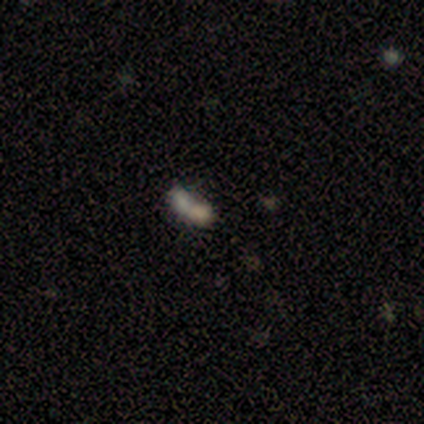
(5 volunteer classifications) This appears to be a smooth galaxy with no disk features (40%, tied with star or artifact) that is in between round and cigar-shaped (50%, tied with cigar-shaped). Merging: merger (67%).